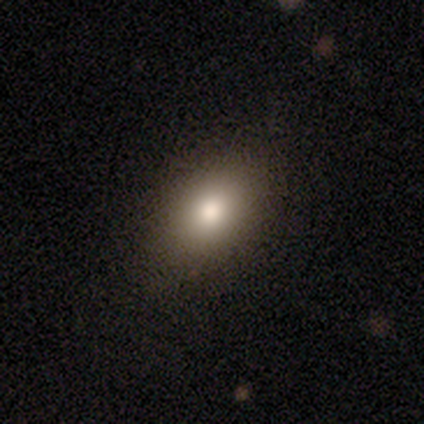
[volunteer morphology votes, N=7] smooth_or_featured: smooth (p=0.71) [alt: star or artifact p=0.29]
how_rounded: in between (p=0.60) [alt: round p=0.40]
merging: none (p=0.80) [alt: minor disturbance p=0.20]